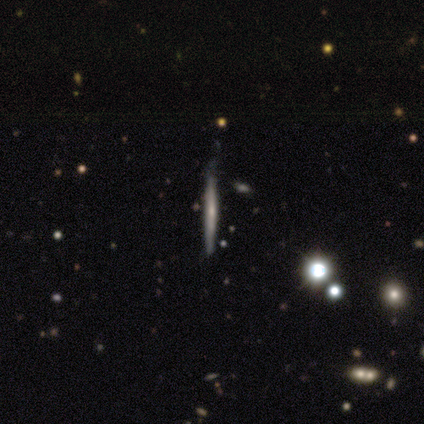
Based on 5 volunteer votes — A smooth galaxy with no disk features (80%) that is cigar-shaped (100%).

Vote fractions:
- Smooth or featured? smooth: 80% / featured or disk: 20% / star or artifact: 0%
- How rounded? cigar-shaped: 100% / round: 0% / in between: 0%
- Merging? none: 80% / minor disturbance: 20% / major disturbance: 0% / merger: 0%